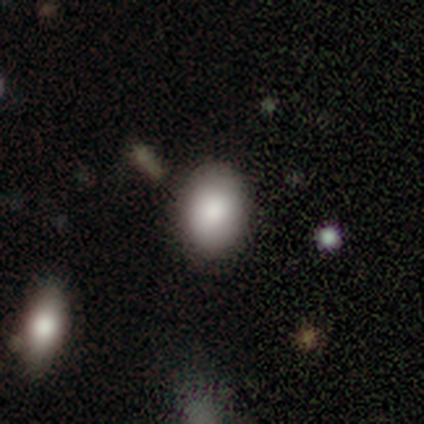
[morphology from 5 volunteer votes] Smooth or featured? 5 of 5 (100%) said smooth. How rounded? 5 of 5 (100%) said in between. Merging? 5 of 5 (100%) said none.